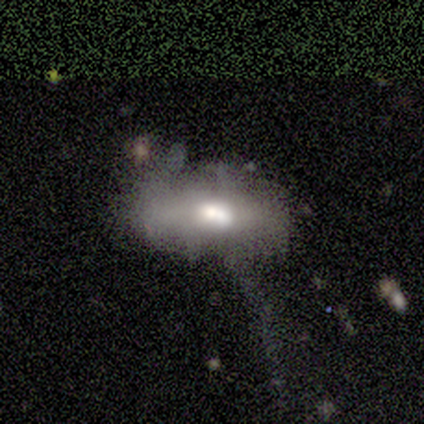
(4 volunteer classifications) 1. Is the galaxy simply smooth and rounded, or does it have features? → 75% smooth, 25% featured or disk, 0% star or artifact.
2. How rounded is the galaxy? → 100% in between, 0% round, 0% cigar-shaped.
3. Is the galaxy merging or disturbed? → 50% minor disturbance (tied), 50% major disturbance (tied), 0% none, 0% merger.